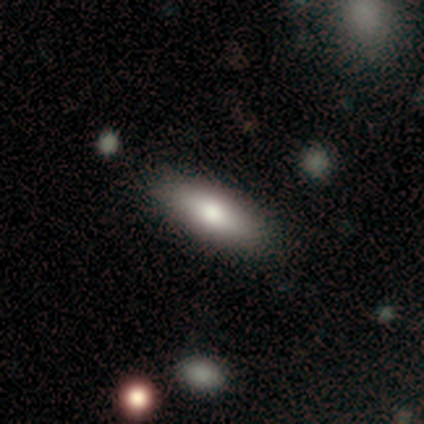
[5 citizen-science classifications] Smooth or featured?
  - smooth: 80% *
  - star or artifact: 20%
  - featured or disk: 0%
How rounded?
  - in between: 100% *
  - round: 0%
  - cigar-shaped: 0%
Merging?
  - none: 100% *
  - minor disturbance: 0%
  - major disturbance: 0%
  - merger: 0%